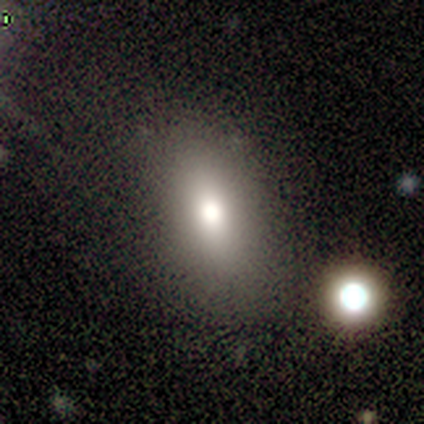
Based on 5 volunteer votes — Q: Smooth or featured?
A: smooth (60%); runner-up: star or artifact (40%)
Q: How rounded?
A: in between (100%)
Q: Merging?
A: none (100%)